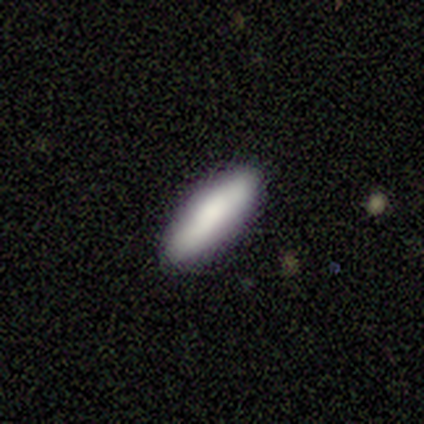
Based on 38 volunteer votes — Volunteers were most divided on "how rounded": cigar-shaped: 54%, in between: 46%, round: 0%. More confident: merging — none (83%); smooth or featured — smooth (74%).